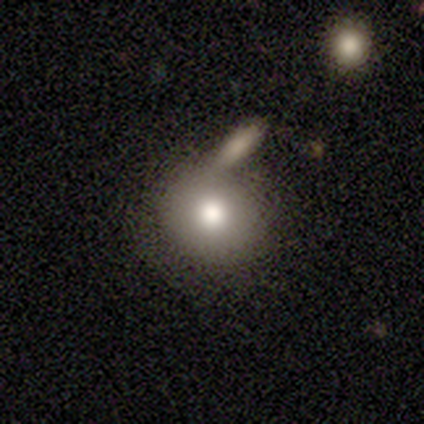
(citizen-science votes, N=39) Volunteers were most divided on "merging": none: 37%, merger: 34%, major disturbance: 5%, minor disturbance: 3%. More confident: how rounded — round (74%); smooth or featured — smooth (69%).